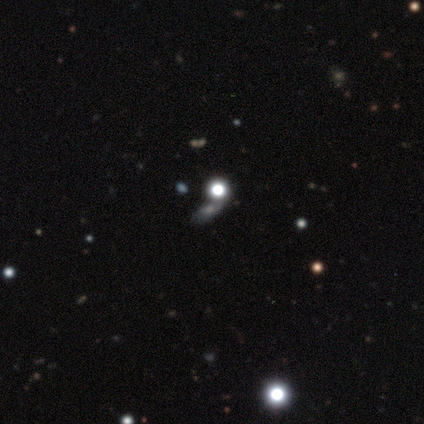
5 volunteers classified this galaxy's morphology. Overall: smooth (100%). How rounded: round (40%, tied with in between). Merging: none (60%; minor disturbance 20%).